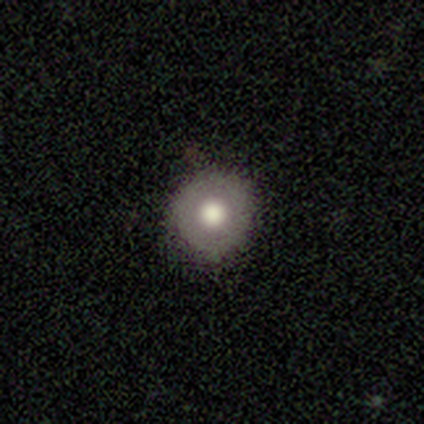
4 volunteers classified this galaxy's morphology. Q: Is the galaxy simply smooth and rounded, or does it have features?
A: smooth — 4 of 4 (100%).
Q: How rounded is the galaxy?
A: round — 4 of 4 (100%).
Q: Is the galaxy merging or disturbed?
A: none — 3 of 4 (75%).